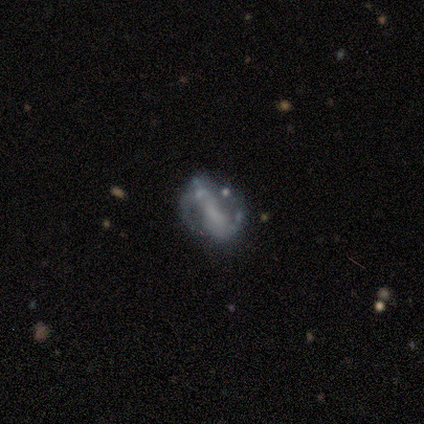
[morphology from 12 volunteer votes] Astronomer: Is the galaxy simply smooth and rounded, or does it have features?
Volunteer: featured or disk — 67%.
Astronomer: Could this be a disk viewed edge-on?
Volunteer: no — 88%.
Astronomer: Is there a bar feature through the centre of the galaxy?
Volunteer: no — 43% (runner-up: strong, 29%).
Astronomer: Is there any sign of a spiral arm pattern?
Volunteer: yes — 71%.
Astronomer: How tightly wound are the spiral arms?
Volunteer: loose — 80%.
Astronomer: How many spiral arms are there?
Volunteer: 2 — 100%.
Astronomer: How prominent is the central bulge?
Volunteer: none — 43% (runner-up: large, 29%).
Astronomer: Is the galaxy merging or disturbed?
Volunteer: none — 42%, tied with minor disturbance at 42%.